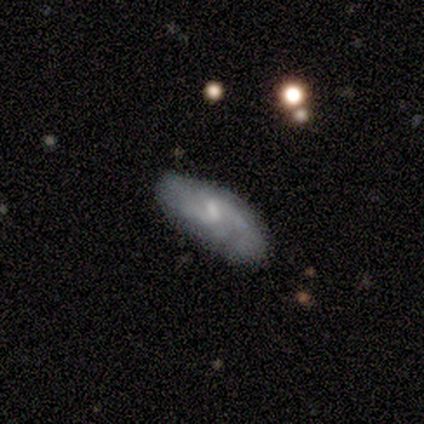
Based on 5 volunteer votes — A featured or disk galaxy (80%) with no bar (50%), 2 (50%) medium (50%, tied with loose) spiral arms (100%) and a small central bulge (50%, tied with none).

Vote fractions:
- Smooth or featured? featured or disk: 80% / smooth: 20% / star or artifact: 0%
- Edge-on disk? no: 100% / yes: 0%
- Bar? no: 50% / strong: 25% / weak: 25%
- Spiral arms? yes: 100% / no: 0%
- Spiral winding? medium: 50% (tied) / loose: 50% (tied) / tight: 0%
- Spiral arm count? 2: 50% / 1: 25% / can't tell: 25% / 3: 0% / 4: 0% / more than 4: 0%
- Bulge size? small: 50% (tied) / none: 50% (tied) / dominant: 0% / large: 0% / moderate: 0%
- Merging? none: 60% / minor disturbance: 40% / major disturbance: 0% / merger: 0%